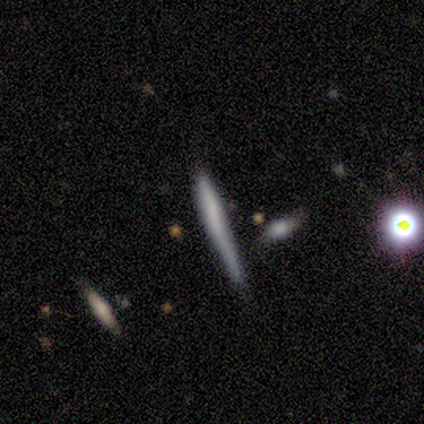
featured or disk 60%, smooth 20%, star or artifact 20%. Down the decision tree: edge-on disk — yes (100%); edge-on bulge — boxy (33%, tied with none and rounded); merging — none (50%, tied with major disturbance).